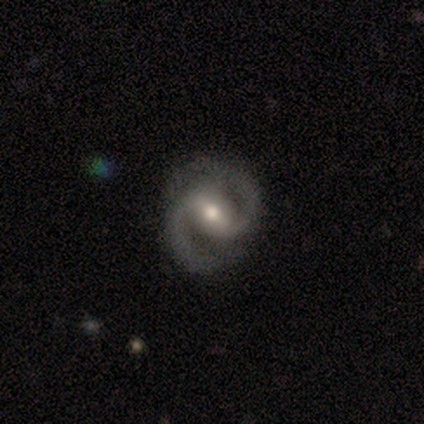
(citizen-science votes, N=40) Overall: featured or disk (95%). Edge-on disk: no (100%). Bar: strong (45%; weak 42%). Spiral arms: yes (100%). Spiral arm count: 2 (97%). Spiral winding: medium (79%). Bulge size: moderate (71%). Merging: none (85%).